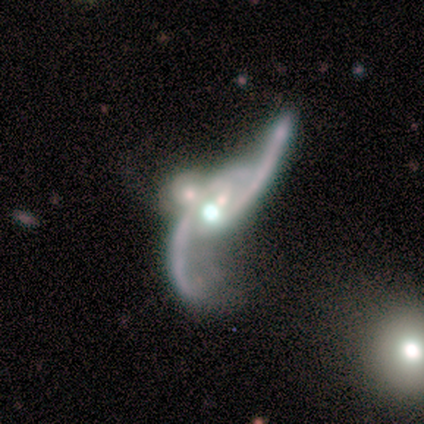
smooth_or_featured: featured or disk (p=0.86) [alt: smooth p=0.14]
disk_edge_on: no (p=0.83) [alt: yes p=0.17]
bar: no (p=0.60) [alt: strong p=0.20]
has_spiral_arms: yes (p=1.00)
spiral_winding: loose (p=0.80) [alt: medium p=0.20]
spiral_arm_count: 2 (p=1.00)
bulge_size: small (p=0.60) [alt: large p=0.20]
merging: merger (p=0.71) [alt: none p=0.14]